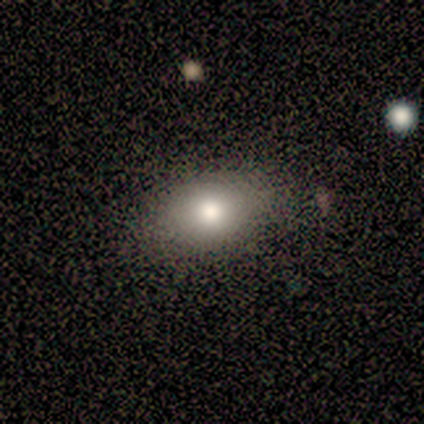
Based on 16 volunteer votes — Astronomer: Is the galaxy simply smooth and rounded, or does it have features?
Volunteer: smooth — 75%.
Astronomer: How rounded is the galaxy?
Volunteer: in between — 100%.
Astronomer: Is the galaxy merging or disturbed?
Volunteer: none — 100%.